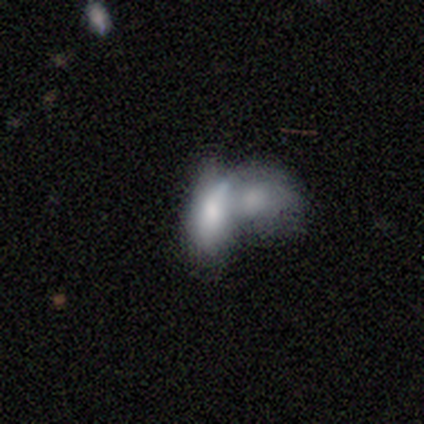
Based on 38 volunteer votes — A smooth galaxy with no disk features (61%) that is in between round and cigar-shaped (87%). Merging: merger (81%).